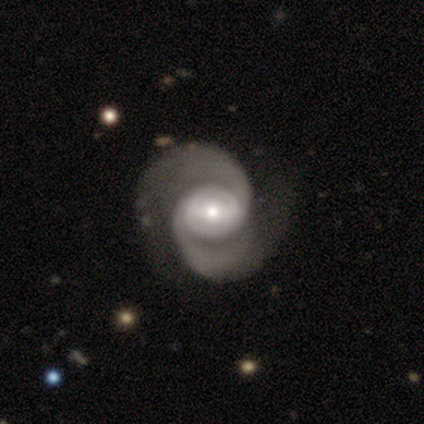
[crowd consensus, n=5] smooth_or_featured: featured or disk (p=1.00)
disk_edge_on: no (p=1.00)
bar: strong (p=0.60) [alt: weak p=0.20]
has_spiral_arms: yes (p=1.00)
spiral_winding: medium (p=0.60) [alt: loose p=0.40]
spiral_arm_count: 2 (p=1.00)
bulge_size: moderate (p=0.80) [alt: small p=0.20]
merging: none (p=0.80) [alt: major disturbance p=0.20]